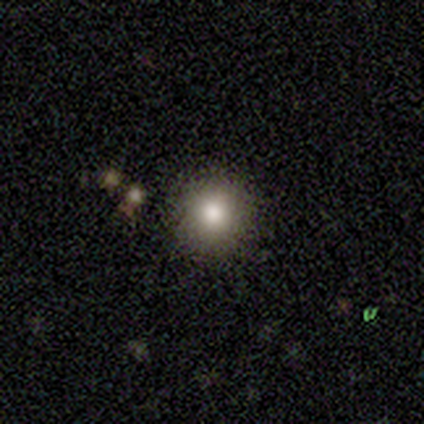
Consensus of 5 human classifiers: A smooth galaxy with no disk features (80%) that is round (100%).

Vote fractions:
- Smooth or featured? smooth: 80% / star or artifact: 20% / featured or disk: 0%
- How rounded? round: 100% / in between: 0% / cigar-shaped: 0%
- Merging? none: 75% / merger: 25% / minor disturbance: 0% / major disturbance: 0%